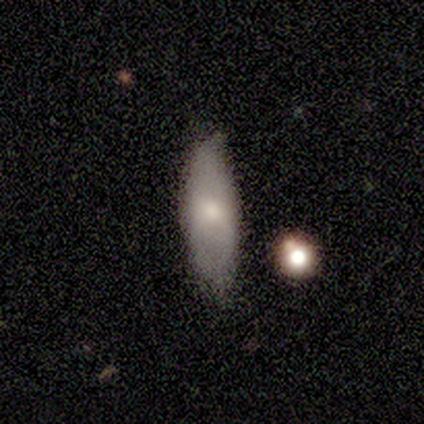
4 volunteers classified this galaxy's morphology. Overall: smooth (100%). How rounded: in between (75%). Merging: none (100%).